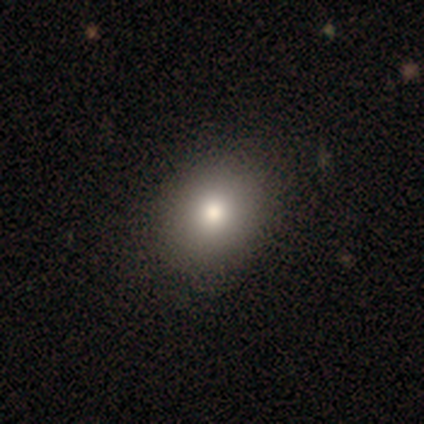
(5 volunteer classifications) Overall: smooth (40%, tied with featured or disk). How rounded: in between (100%). Merging: none (75%).